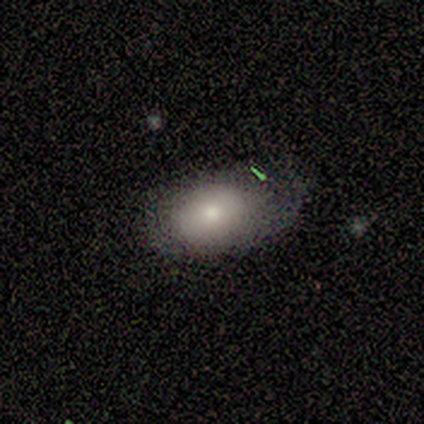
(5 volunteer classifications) smooth 60%, featured or disk 40%, star or artifact 0%. Down the decision tree: how rounded — in between (100%); merging — minor disturbance (80%).